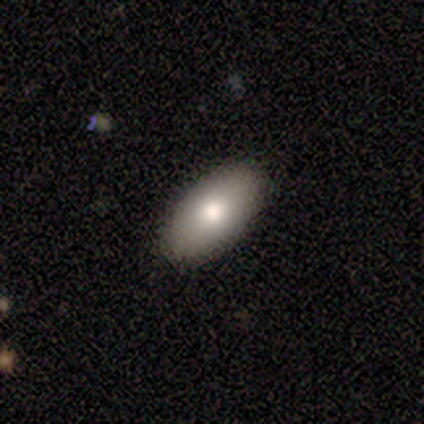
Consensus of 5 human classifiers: Smooth or featured? smooth (80%)
How rounded? in between (100%)
Merging? none (100%)